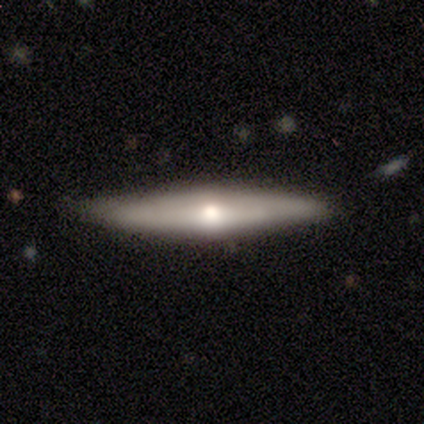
featured or disk 75%, smooth 25%, star or artifact 0%. Down the decision tree: edge-on disk — yes (100%); edge-on bulge — rounded (100%); merging — none (100%).